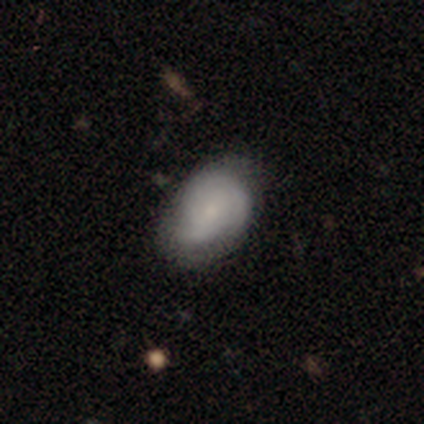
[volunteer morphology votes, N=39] Smooth or featured? 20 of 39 (51%) said smooth. How rounded? 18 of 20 (90%) said in between. Merging? 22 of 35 (63%) said none.